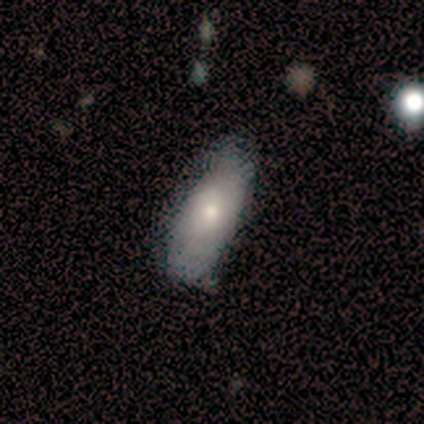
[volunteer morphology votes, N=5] This is likely a smooth galaxy (60%). How rounded: clearly in between (100%). Merging: clearly none (80%).